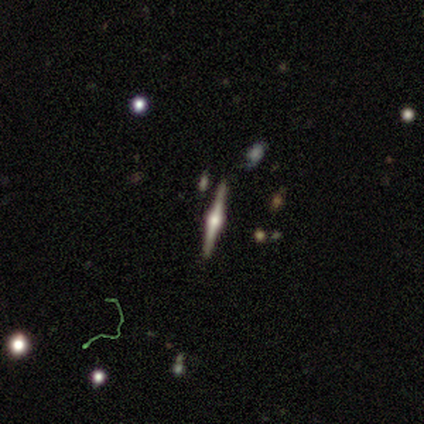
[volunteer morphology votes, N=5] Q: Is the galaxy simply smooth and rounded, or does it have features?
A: featured or disk — 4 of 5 (80%).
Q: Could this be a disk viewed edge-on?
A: yes — 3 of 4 (75%).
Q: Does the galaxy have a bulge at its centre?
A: rounded — 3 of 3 (100%).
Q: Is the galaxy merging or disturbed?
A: none — 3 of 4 (75%).